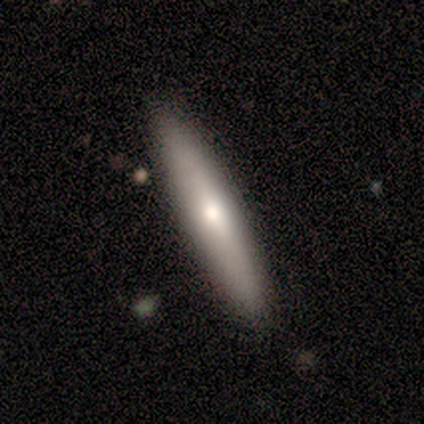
This appears to be a smooth galaxy with no disk features (71%) that is cigar-shaped (100%). Merging: none (100%).